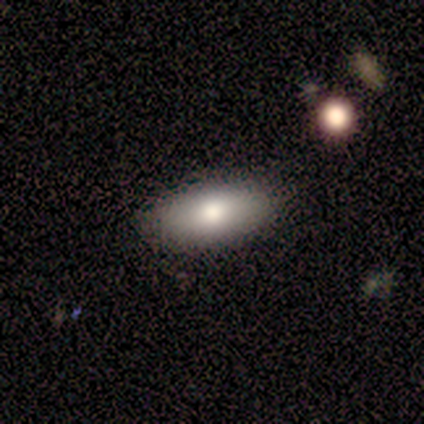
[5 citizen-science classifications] This is clearly a smooth galaxy (80%). How rounded: clearly in between (100%). Merging: clearly none (100%).